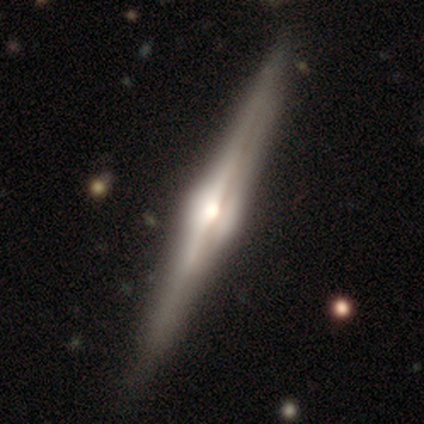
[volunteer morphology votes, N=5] Q: Smooth or featured?
A: featured or disk (80%); runner-up: star or artifact (20%)
Q: Edge-on disk?
A: yes (100%)
Q: Edge-on bulge?
A: rounded (100%)
Q: Merging?
A: none (75%); runner-up: minor disturbance (25%)